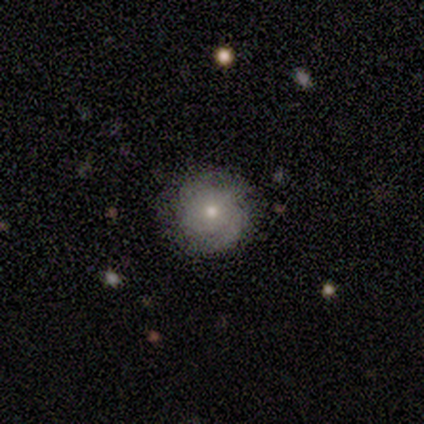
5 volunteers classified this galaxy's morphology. A smooth galaxy with no disk features (60%) that is round (100%).

Vote fractions:
- Smooth or featured? smooth: 60% / featured or disk: 40% / star or artifact: 0%
- How rounded? round: 100% / in between: 0% / cigar-shaped: 0%
- Merging? none: 80% / minor disturbance: 20% / major disturbance: 0% / merger: 0%